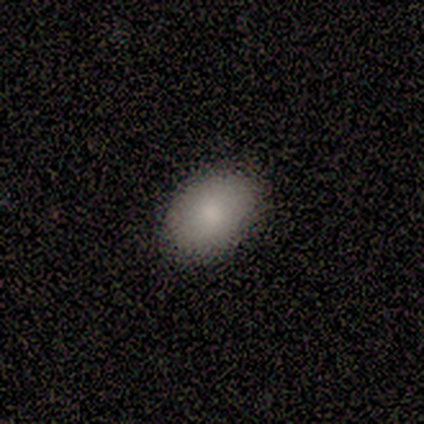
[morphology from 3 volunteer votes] smooth_or_featured: smooth (p=1.00)
how_rounded: in between (p=1.00)
merging: none (p=1.00)